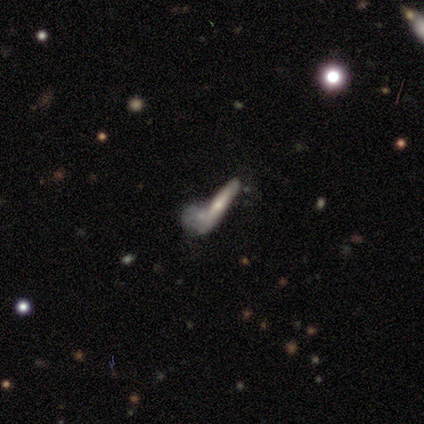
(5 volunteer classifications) Overall: smooth (60%; featured or disk 40%). How rounded: cigar-shaped (100%). Merging: none (40%, tied with major disturbance).